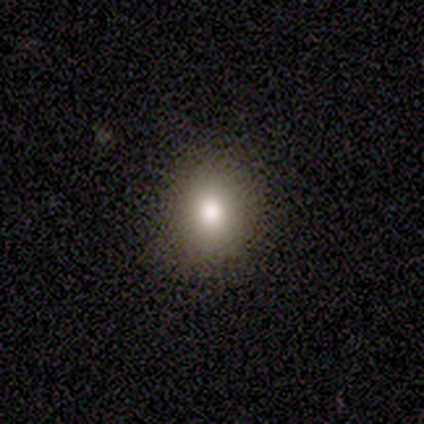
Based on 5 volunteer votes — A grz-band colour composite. It shows a smooth galaxy with no disk features (80%) that is round (50%, tied with in between). Merging: none (100%).